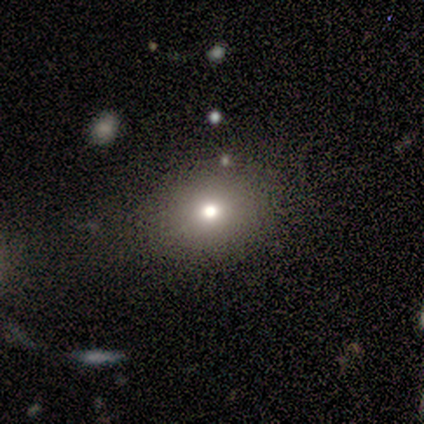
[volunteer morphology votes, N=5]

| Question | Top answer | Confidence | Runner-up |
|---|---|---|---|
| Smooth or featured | smooth | 100% | — |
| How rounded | in between | 60% | round (40%) |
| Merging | none | 80% | minor disturbance (20%) |